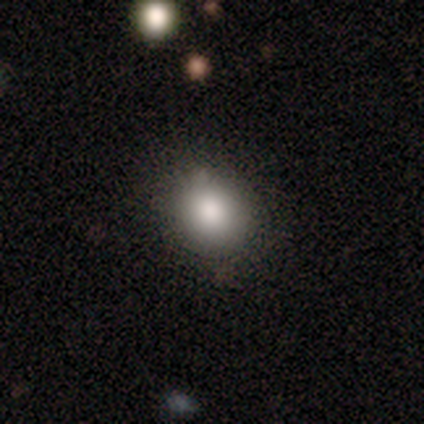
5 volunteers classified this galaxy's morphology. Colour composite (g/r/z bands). It shows a smooth galaxy with no disk features (80%) that is round (75%). Merging: none (75%).